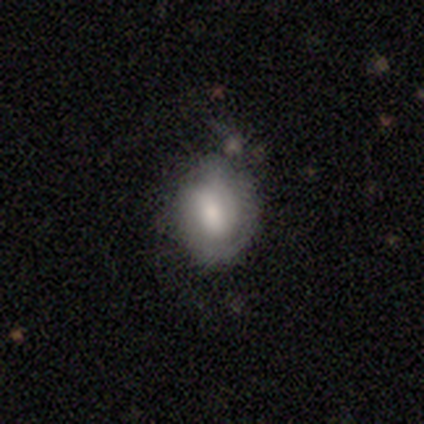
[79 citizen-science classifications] smooth 54%, featured or disk 41%, star or artifact 5%. Down the decision tree: how rounded — in between (51%); merging — none (44%).